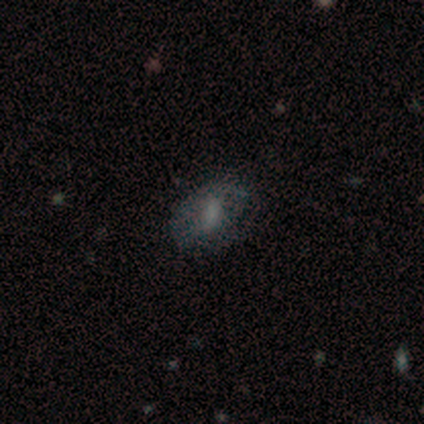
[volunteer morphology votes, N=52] smooth_or_featured: smooth (p=0.44) [tied with: featured or disk p=0.44]
how_rounded: in between (p=0.87) [alt: round p=0.13]
merging: none (p=0.65) [alt: major disturbance p=0.15]